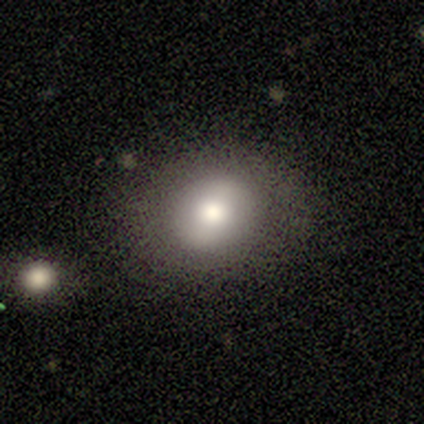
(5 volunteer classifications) This appears to be a smooth galaxy with no disk features (60%) that is round (67%). Merging: none (67%).